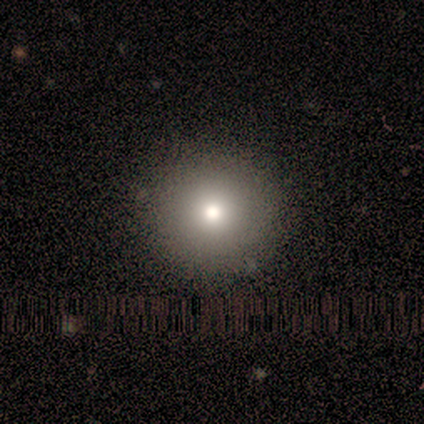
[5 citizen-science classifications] Morphology: type=smooth (100%); roundness=round (100%); merging=none (100%).